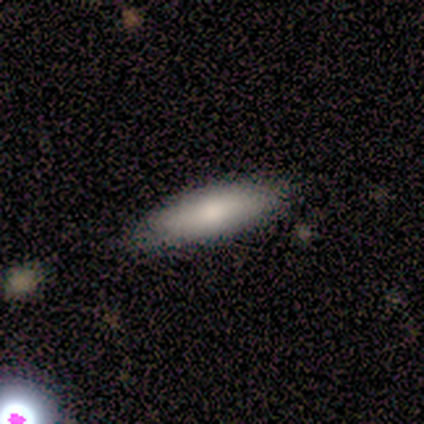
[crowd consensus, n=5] Q: Smooth or featured?
A: smooth (80%); runner-up: featured or disk (20%)
Q: How rounded?
A: cigar-shaped (75%); runner-up: in between (25%)
Q: Merging?
A: none (80%); runner-up: minor disturbance (20%)